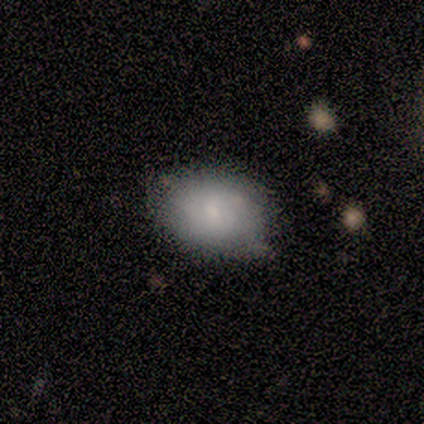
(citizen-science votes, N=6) smooth-or-featured: featured or disk: 67% | smooth: 33% | star or artifact: 0%
  disk-edge-on: no: 75% | yes: 25%
    bar: no: 100% | strong: 0% | weak: 0%
    has-spiral-arms: no: 67% | yes: 33%
    bulge-size: small: 67% | none: 33% | dominant: 0% | large: 0% | moderate: 0%
  merging: none: 50% (tied) | minor disturbance: 50% (tied) | major disturbance: 0% | merger: 0%